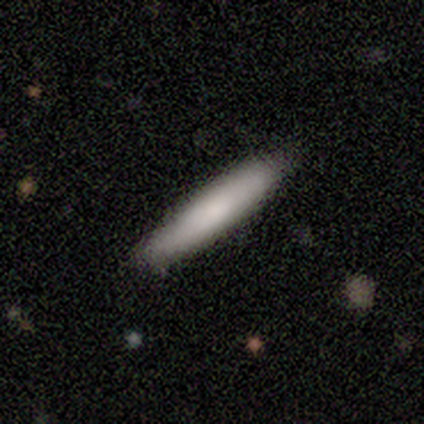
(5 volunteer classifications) Consensus on every question: smooth or featured — smooth (100%); how rounded — cigar-shaped (100%); merging — none (100%).